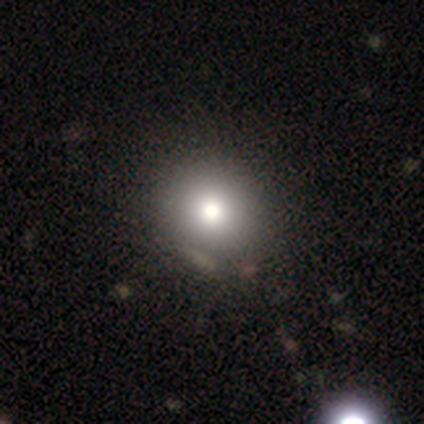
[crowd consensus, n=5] A smooth galaxy with no disk features (80%) that is round (75%).

Vote fractions:
- Smooth or featured? smooth: 80% / star or artifact: 20% / featured or disk: 0%
- How rounded? round: 75% / in between: 25% / cigar-shaped: 0%
- Merging? none: 75% / minor disturbance: 25% / major disturbance: 0% / merger: 0%